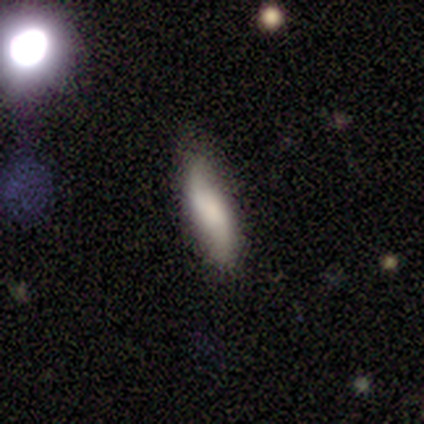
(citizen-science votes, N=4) smooth_or_featured: smooth (p=0.75) [alt: featured or disk p=0.25]
how_rounded: cigar-shaped (p=1.00)
merging: none (p=1.00)